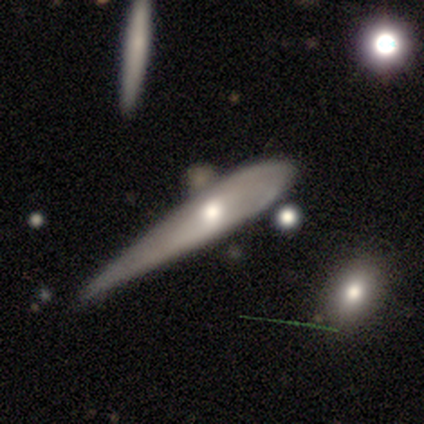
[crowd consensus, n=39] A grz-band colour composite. It shows a smooth galaxy with no disk features (46%) that is cigar-shaped (72%). Merging: minor disturbance (53%).